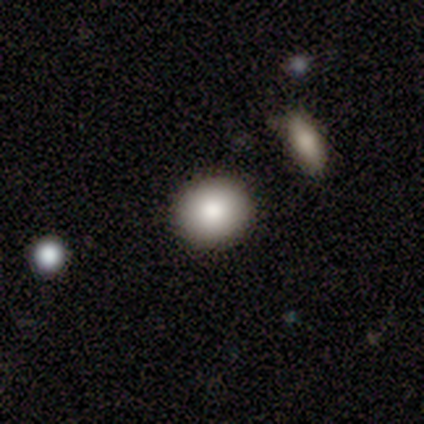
smooth-or-featured: smooth: 80% | star or artifact: 20% | featured or disk: 0%
  how-rounded: round: 100% | in between: 0% | cigar-shaped: 0%
  merging: none: 100% | minor disturbance: 0% | major disturbance: 0% | merger: 0%